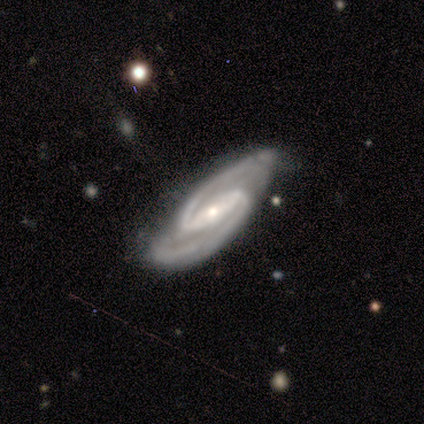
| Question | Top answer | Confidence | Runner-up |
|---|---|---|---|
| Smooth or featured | featured or disk | 100% | — |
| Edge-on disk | no | 80% | yes (20%) |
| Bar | strong | 75% | weak (25%) |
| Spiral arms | yes | 100% | — |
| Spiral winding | medium | 50% | tied: loose (50%) |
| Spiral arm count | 2 | 100% | — |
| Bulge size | small | 75% | moderate (25%) |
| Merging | none | 60% | minor disturbance (40%) |